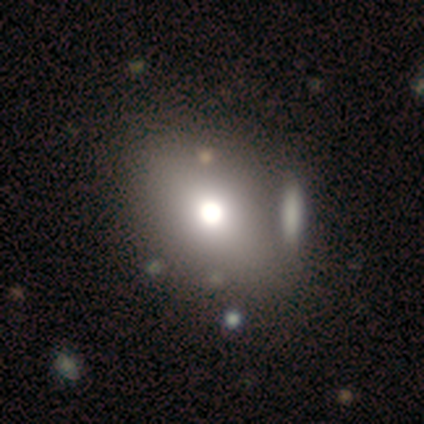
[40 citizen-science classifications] smooth-or-featured: smooth: 72% | star or artifact: 18% | featured or disk: 10%
  how-rounded: in between: 59% | round: 41% | cigar-shaped: 0%
  merging: none: 45% | merger: 27% | minor disturbance: 6% | major disturbance: 6%